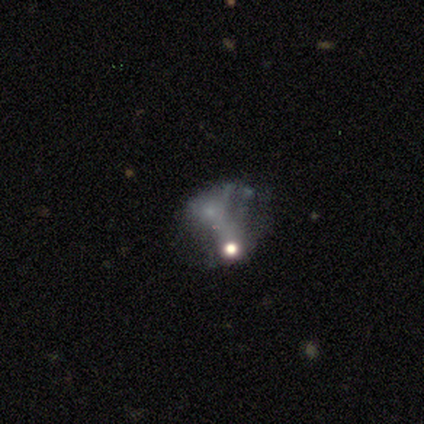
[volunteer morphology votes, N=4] A featured or disk galaxy (50%) with no bar (100%), no spiral arms (100%) and a dominant central bulge (50%, tied with moderate).

Vote fractions:
- Smooth or featured? featured or disk: 50% / smooth: 25% / star or artifact: 25%
- Edge-on disk? no: 100% / yes: 0%
- Bar? no: 100% / strong: 0% / weak: 0%
- Spiral arms? no: 100% / yes: 0%
- Bulge size? dominant: 50% (tied) / moderate: 50% (tied) / large: 0% / small: 0% / none: 0%
- Merging? none: 33% (tied) / minor disturbance: 33% (tied) / merger: 33% (tied) / major disturbance: 0%